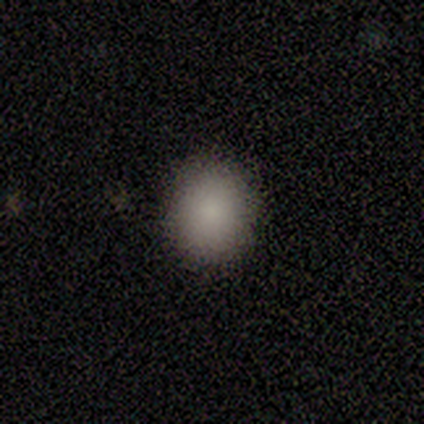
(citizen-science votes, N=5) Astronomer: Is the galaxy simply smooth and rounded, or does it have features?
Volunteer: smooth — 100%.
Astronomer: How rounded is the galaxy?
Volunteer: round — 80%.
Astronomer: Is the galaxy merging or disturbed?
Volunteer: none — 100%.